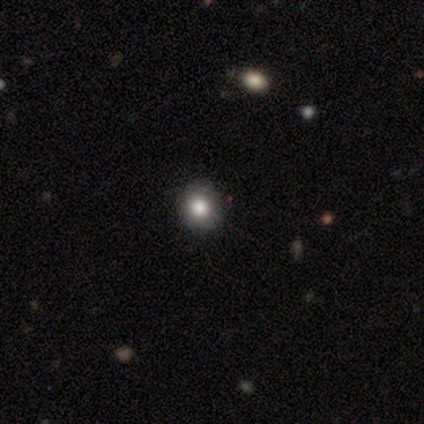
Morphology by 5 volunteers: This is likely a smooth galaxy (60%). How rounded: clearly round (100%). Merging: clearly none (100%).